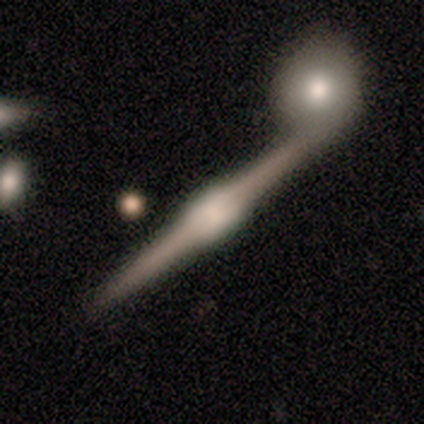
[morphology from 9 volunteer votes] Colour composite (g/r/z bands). It shows a featured or disk galaxy (89%) viewed edge-on (100%) with a boxy central bulge (75%). Merging: none (78%).